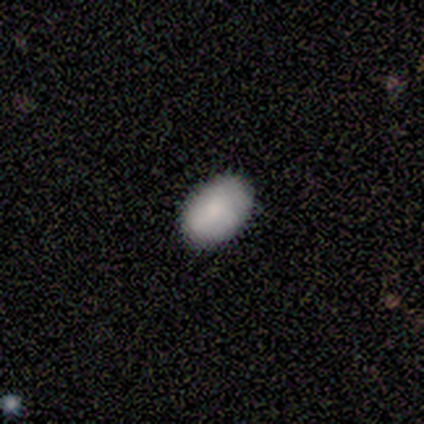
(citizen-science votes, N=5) smooth-or-featured: smooth: 60% | featured or disk: 20% | star or artifact: 20%
  how-rounded: in between: 100% | round: 0% | cigar-shaped: 0%
  merging: none: 100% | minor disturbance: 0% | major disturbance: 0% | merger: 0%